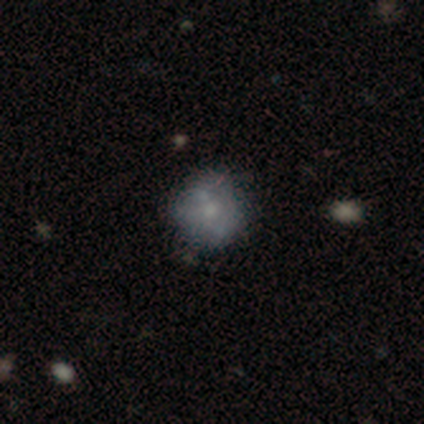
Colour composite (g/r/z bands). It shows a smooth galaxy with no disk features (100%) that is round (100%). Merging: none (75%).